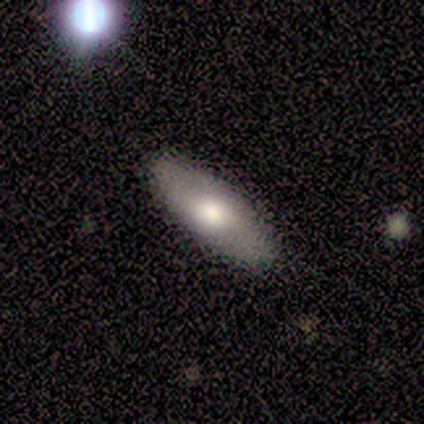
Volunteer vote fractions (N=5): A smooth galaxy with no disk features (40%, tied with featured or disk) that is in between round and cigar-shaped (50%, tied with cigar-shaped).

Vote fractions:
- Smooth or featured? smooth: 40% (tied) / featured or disk: 40% (tied) / star or artifact: 20%
- How rounded? in between: 50% (tied) / cigar-shaped: 50% (tied) / round: 0%
- Merging? none: 100% / minor disturbance: 0% / major disturbance: 0% / merger: 0%